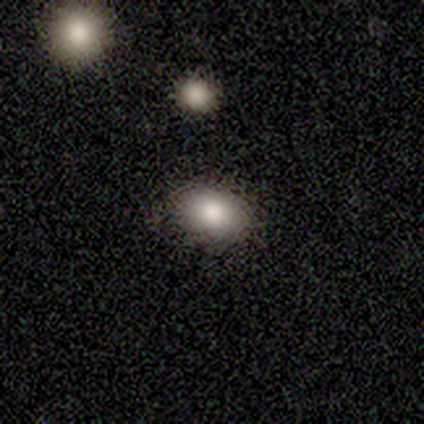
Overall: smooth (100%). How rounded: in between (80%). Merging: none (80%).